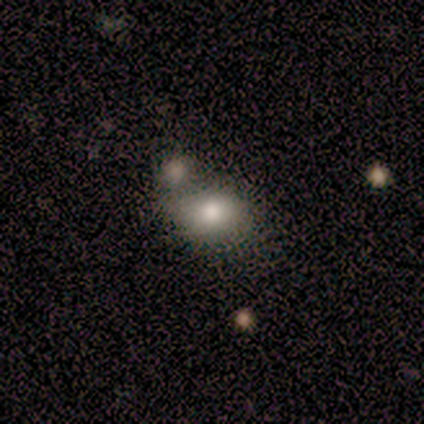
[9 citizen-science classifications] Smooth or featured?
  - smooth: 89% *
  - star or artifact: 11%
  - featured or disk: 0%
How rounded?
  - in between: 75% *
  - round: 25%
  - cigar-shaped: 0%
Merging?
  - merger: 50% *
  - none: 38%
  - minor disturbance: 12%
  - major disturbance: 0%